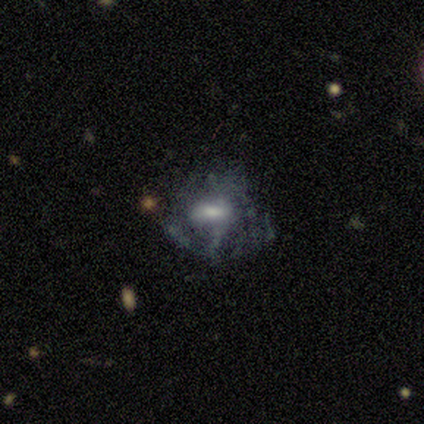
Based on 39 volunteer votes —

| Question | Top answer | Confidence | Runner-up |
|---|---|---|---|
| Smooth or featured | featured or disk | 72% | smooth (21%) |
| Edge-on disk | no | 93% | yes (7%) |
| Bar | no | 54% | weak (42%) |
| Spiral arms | no | 62% | yes (38%) |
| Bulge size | moderate | 62% | small (27%) |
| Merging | none | 44% | minor disturbance (31%) |